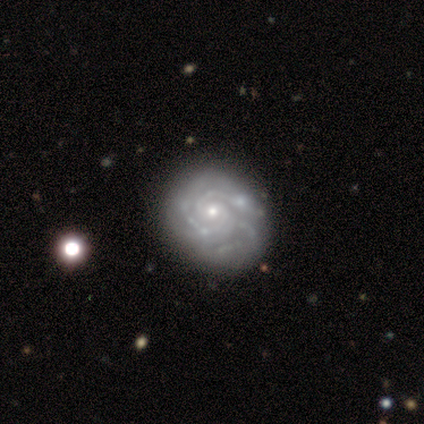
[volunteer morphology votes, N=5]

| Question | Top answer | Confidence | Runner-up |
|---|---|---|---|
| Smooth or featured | featured or disk | 100% | — |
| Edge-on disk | no | 100% | — |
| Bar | no | 60% | strong (20%) |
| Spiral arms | yes | 80% | no (20%) |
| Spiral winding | tight | 50% | tied: medium (50%) |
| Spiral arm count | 2 | 50% | tied: 3 (50%) |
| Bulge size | small | 60% | moderate (40%) |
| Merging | minor disturbance | 100% | — |